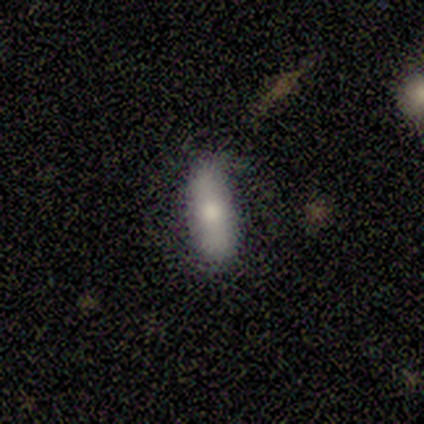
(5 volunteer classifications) Smooth or featured? 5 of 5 (100%) said smooth. How rounded? 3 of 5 (60%) said in between. Merging? 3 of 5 (60%) said none.